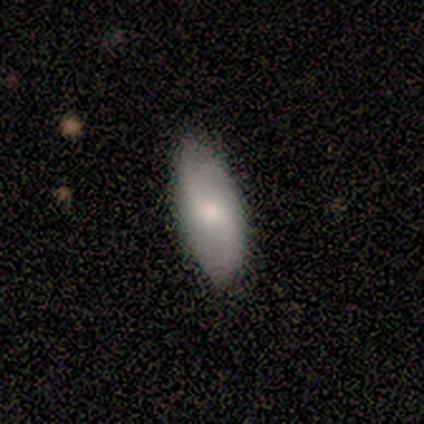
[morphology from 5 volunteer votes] This is clearly a smooth galaxy (80%). How rounded: likely in between (75%). Merging: clearly none (100%).